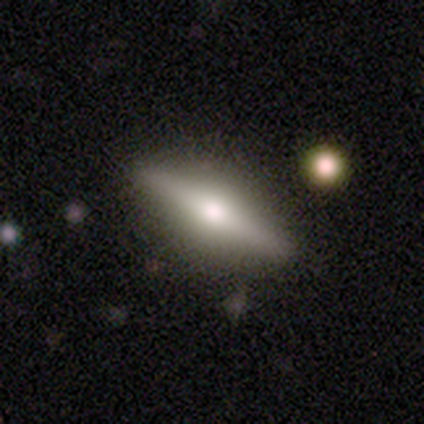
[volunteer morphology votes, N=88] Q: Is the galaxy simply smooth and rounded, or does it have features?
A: featured or disk — 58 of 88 (66%).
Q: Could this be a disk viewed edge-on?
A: yes — 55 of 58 (95%).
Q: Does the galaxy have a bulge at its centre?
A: rounded — 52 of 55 (95%).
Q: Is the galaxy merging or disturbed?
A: none — 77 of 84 (92%).